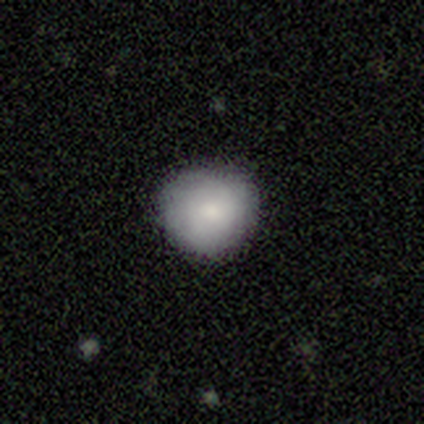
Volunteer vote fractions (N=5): Smooth or featured?
  - smooth: 80% *
  - featured or disk: 20%
  - star or artifact: 0%
How rounded?
  - round: 75% *
  - in between: 25%
  - cigar-shaped: 0%
Merging?
  - none: 100% *
  - minor disturbance: 0%
  - major disturbance: 0%
  - merger: 0%